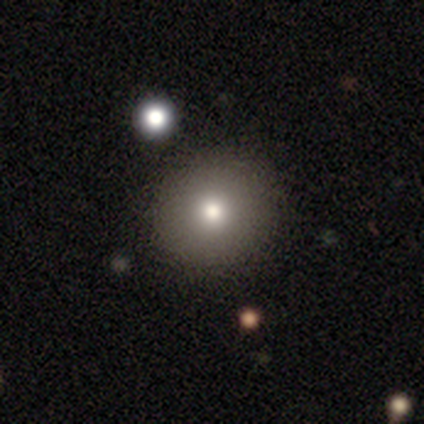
A smooth galaxy with no disk features (65%) that is round (96%).

Vote fractions:
- Smooth or featured? smooth: 65% / featured or disk: 22% / star or artifact: 12%
- How rounded? round: 96% / in between: 4% / cigar-shaped: 0%
- Merging? none: 89% / minor disturbance: 6% / major disturbance: 6% / merger: 0%